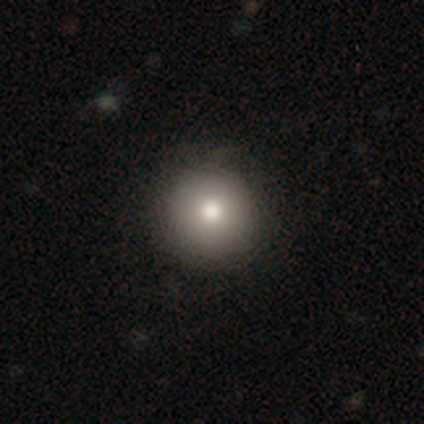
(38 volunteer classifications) smooth 87%, featured or disk 11%, star or artifact 3%. Down the decision tree: how rounded — round (97%); merging — none (65%).